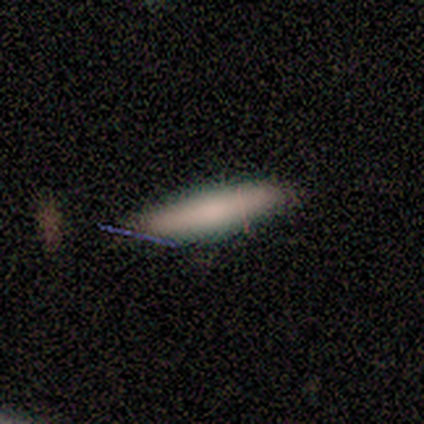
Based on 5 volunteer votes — Smooth or featured? 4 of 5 (80%) said smooth. How rounded? 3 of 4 (75%) said cigar-shaped. Merging? 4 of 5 (80%) said none.